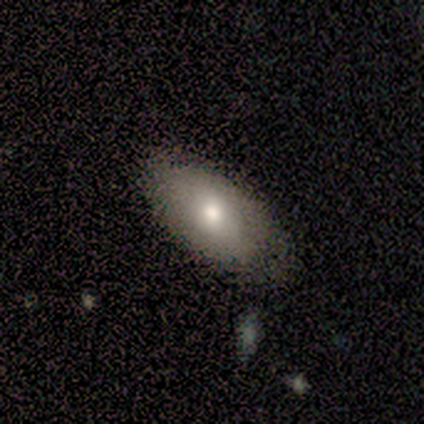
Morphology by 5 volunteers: type=smooth (60%); roundness=in between (100%); merging=none (50%, tied with minor disturbance).